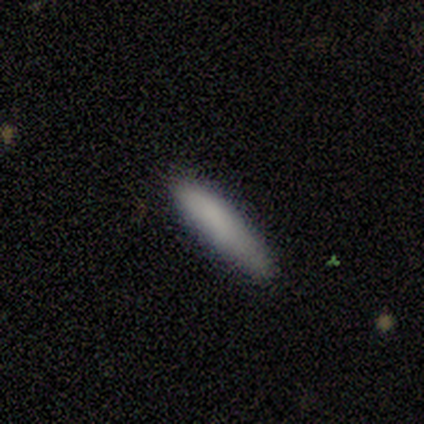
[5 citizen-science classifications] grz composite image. It shows a smooth galaxy with no disk features (80%) that is cigar-shaped (100%). Merging: none (100%).